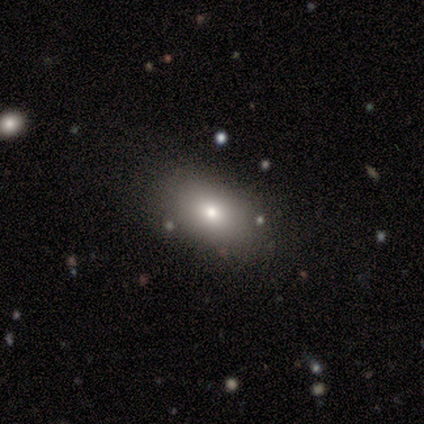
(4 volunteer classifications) A smooth galaxy with no disk features (75%) that is in between round and cigar-shaped (100%).

Vote fractions:
- Smooth or featured? smooth: 75% / star or artifact: 25% / featured or disk: 0%
- How rounded? in between: 100% / round: 0% / cigar-shaped: 0%
- Merging? minor disturbance: 67% / none: 33% / major disturbance: 0% / merger: 0%